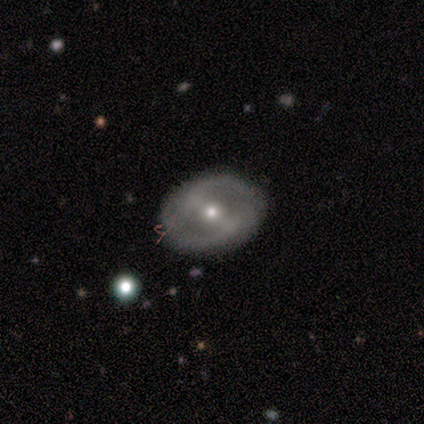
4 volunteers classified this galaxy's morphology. smooth_or_featured: featured or disk (p=0.75) [alt: smooth p=0.25]
disk_edge_on: no (p=1.00)
bar: strong (p=0.67) [alt: weak p=0.33]
has_spiral_arms: no (p=1.00)
bulge_size: small (p=0.67) [alt: moderate p=0.33]
merging: none (p=1.00)